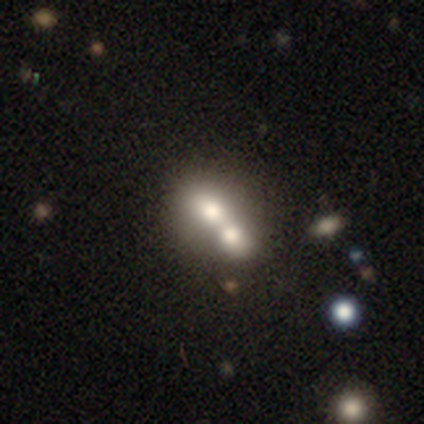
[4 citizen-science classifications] Morphology: type=smooth (75%); roundness=round (100%); merging=minor disturbance (50%, tied with merger).